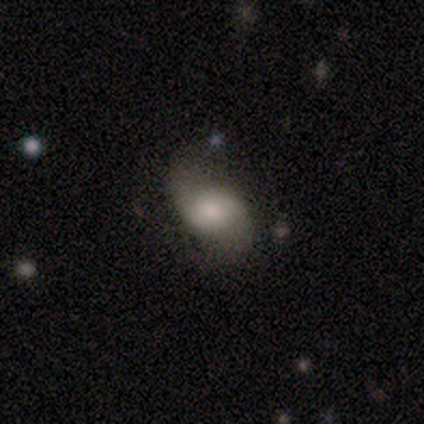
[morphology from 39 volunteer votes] smooth-or-featured: featured or disk: 54% | smooth: 41% | star or artifact: 5%
  disk-edge-on: no: 100% | yes: 0%
    bar: weak: 57% | no: 43% | strong: 0%
    has-spiral-arms: yes: 71% | no: 29%
      spiral-winding: loose: 47% | medium: 33% | tight: 20%
      spiral-arm-count: 2: 93% | can't tell: 7% | 1: 0% | 3: 0% | 4: 0% | more than 4: 0%
    bulge-size: small: 38% | large: 24% | moderate: 24% | dominant: 10% | none: 5%
  merging: none: 57% | minor disturbance: 27% | major disturbance: 16% | merger: 0%